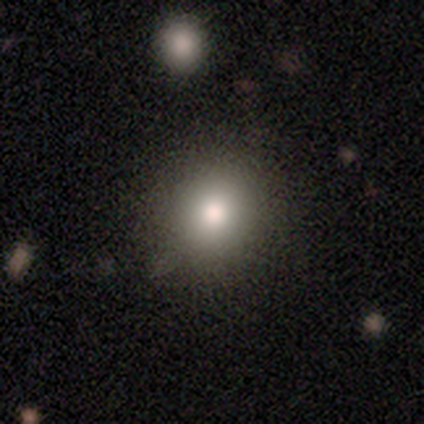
smooth-or-featured: smooth: 60% | star or artifact: 40% | featured or disk: 0%
  how-rounded: round: 100% | in between: 0% | cigar-shaped: 0%
  merging: none: 67% | merger: 33% | minor disturbance: 0% | major disturbance: 0%